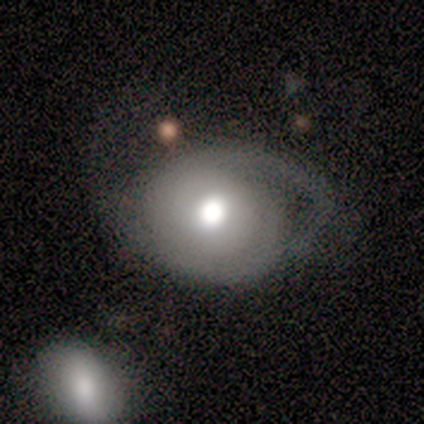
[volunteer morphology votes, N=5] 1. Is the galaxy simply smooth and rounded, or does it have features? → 80% smooth, 20% featured or disk, 0% star or artifact.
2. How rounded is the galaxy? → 50% round (tied), 50% in between (tied), 0% cigar-shaped.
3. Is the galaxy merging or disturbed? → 60% minor disturbance, 20% major disturbance, 20% merger, 0% none.